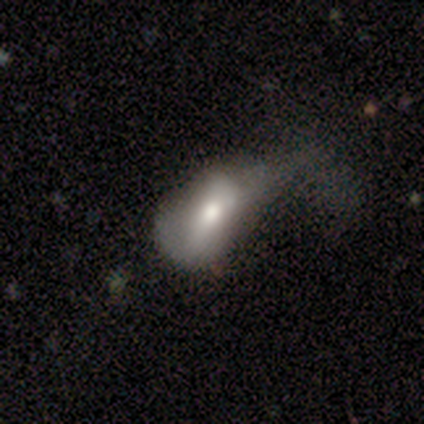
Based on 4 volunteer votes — This appears to be a featured or disk galaxy (75%) viewed edge-on (67%) with a boxy central bulge (50%, tied with rounded). Merging: major disturbance (75%).